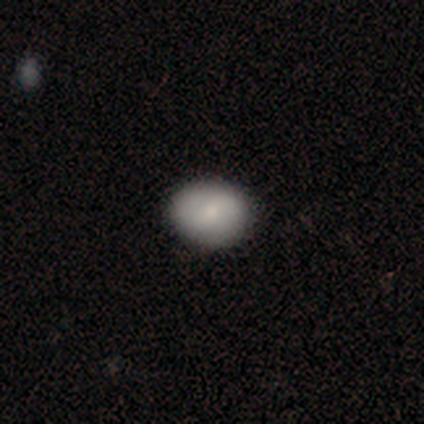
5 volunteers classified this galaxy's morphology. Volunteers were most divided on "how rounded" (2-way tie): round: 50%, in between: 50%, cigar-shaped: 0%. More confident: merging — none (100%); smooth or featured — smooth (80%).